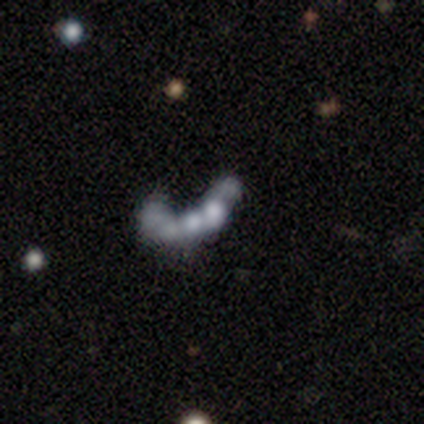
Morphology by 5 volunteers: This is marginally a featured or disk galaxy (40%, tied with star or artifact). It is clearly not viewed edge-on (100%). Bar: clearly no (100%). Spiral arm pattern: clearly no (100%). Central bulge: clearly none (100%). Merging: likely none (67%).